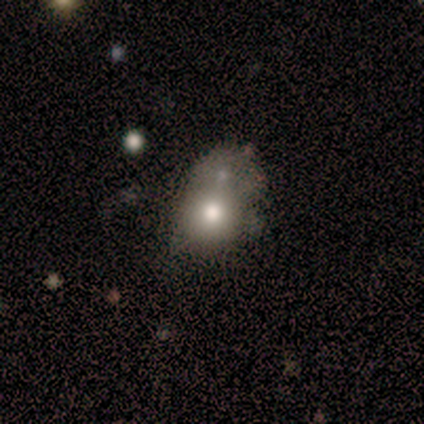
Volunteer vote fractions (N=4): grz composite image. It shows a smooth galaxy with no disk features (50%, tied with featured or disk) that is round (50%, tied with in between). Merging: merger (75%).